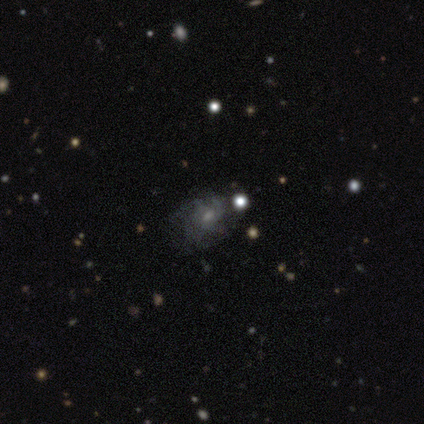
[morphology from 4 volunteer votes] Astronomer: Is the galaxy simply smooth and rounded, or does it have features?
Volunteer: featured or disk — 75%.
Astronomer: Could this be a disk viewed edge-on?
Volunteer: no — 100%.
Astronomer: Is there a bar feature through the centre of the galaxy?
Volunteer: no — 67%.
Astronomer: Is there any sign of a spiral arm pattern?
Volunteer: yes — 100%.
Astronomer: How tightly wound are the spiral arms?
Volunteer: tight — 67%.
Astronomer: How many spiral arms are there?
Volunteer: can't tell — 67%.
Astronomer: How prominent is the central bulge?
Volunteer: moderate — 67%.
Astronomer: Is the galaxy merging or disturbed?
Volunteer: none — 50%.